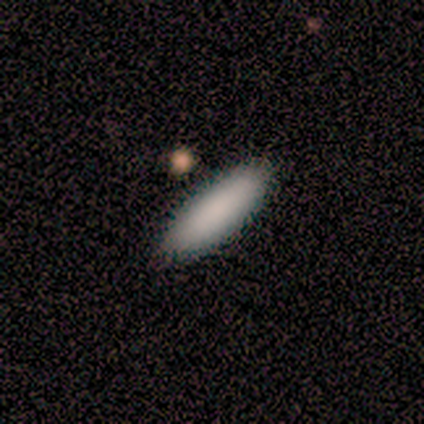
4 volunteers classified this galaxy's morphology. Volunteers were most divided on "smooth or featured" (2-way tie): smooth: 50%, featured or disk: 50%, star or artifact: 0%; "how rounded" (2-way tie): in between: 50%, cigar-shaped: 50%, round: 0%. More confident: merging — none (75%).